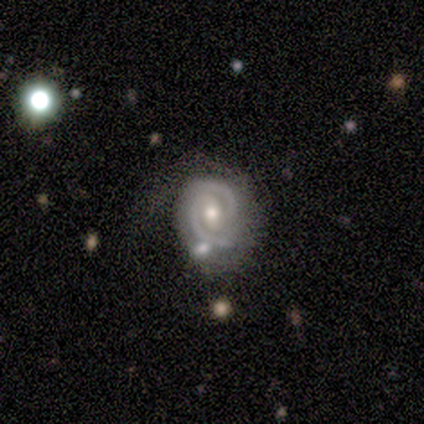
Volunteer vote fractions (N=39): This is clearly a featured or disk galaxy (87%). It is clearly not viewed edge-on (97%). Bar: possibly weak (45%, tied with no). Spiral arm pattern: clearly yes (97%). Spiral arm count: likely 2 (75%). Spiral winding: likely tight (66%). Central bulge: possibly small (48%). Merging: likely none (68%).